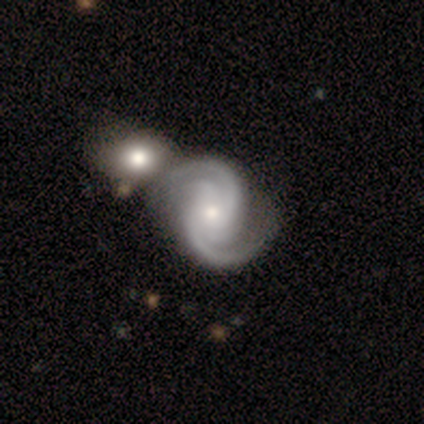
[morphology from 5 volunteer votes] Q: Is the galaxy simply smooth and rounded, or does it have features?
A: featured or disk — 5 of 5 (100%).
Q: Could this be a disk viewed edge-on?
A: no — 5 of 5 (100%).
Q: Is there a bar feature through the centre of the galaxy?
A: no — 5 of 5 (100%).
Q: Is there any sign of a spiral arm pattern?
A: yes — 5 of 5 (100%).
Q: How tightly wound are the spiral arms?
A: medium — 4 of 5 (80%).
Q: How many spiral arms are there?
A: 3 — 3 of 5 (60%).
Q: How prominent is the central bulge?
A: moderate — 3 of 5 (60%).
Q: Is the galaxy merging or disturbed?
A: none — 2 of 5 (40%, tied with merger).